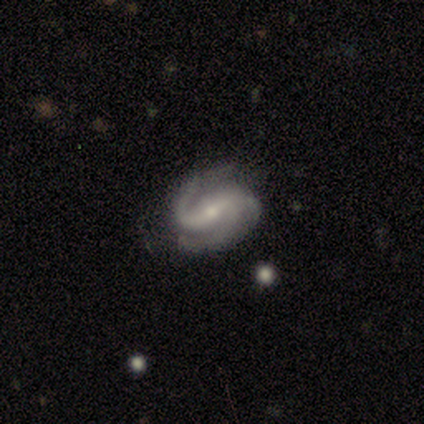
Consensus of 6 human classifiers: featured or disk 100%, smooth 0%, star or artifact 0%. Down the decision tree: edge-on disk — no (100%); bar — weak (67%); spiral arms — yes (100%); spiral arm count — 2 (50%); spiral winding — medium (50%); bulge size — small (67%); merging — none (67%).